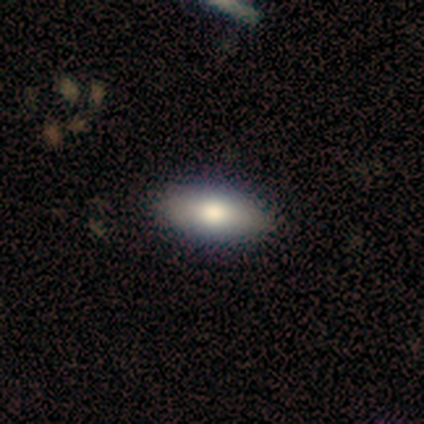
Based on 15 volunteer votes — Smooth or featured? smooth (73%)
How rounded? in between (82%)
Merging? none (93%)